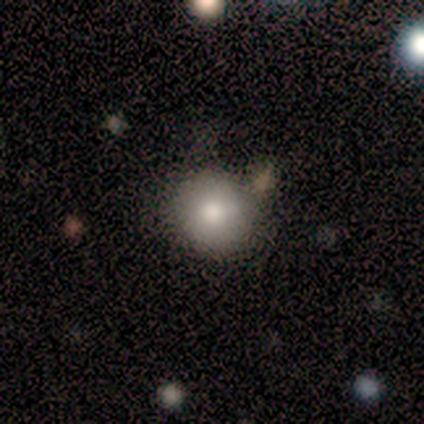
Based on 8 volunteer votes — Overall: smooth (88%). How rounded: round (86%). Merging: none (88%).